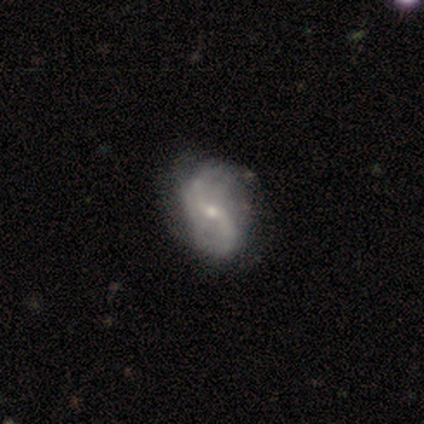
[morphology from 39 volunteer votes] A featured or disk galaxy (95%) with no bar (59%), 2 (83%) loose (72%) spiral arms (97%) and a small central bulge (65%). Merging: none (44%).